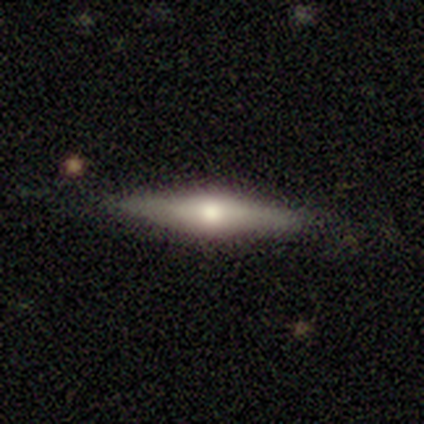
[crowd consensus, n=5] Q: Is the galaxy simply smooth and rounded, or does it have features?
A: featured or disk — 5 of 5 (100%).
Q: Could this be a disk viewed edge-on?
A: yes — 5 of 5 (100%).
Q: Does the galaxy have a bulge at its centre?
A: rounded — 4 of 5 (80%).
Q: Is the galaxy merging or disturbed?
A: none — 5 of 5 (100%).